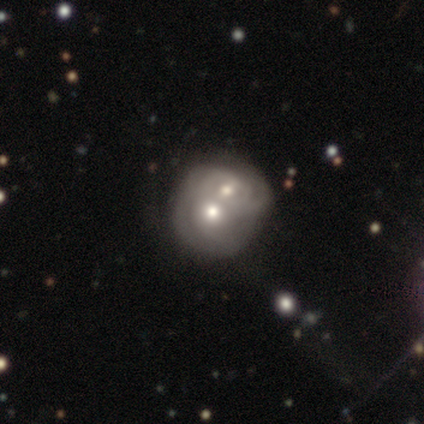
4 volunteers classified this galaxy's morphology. Smooth or featured? smooth (75%)
How rounded? round (67%)
Merging? merger (75%)